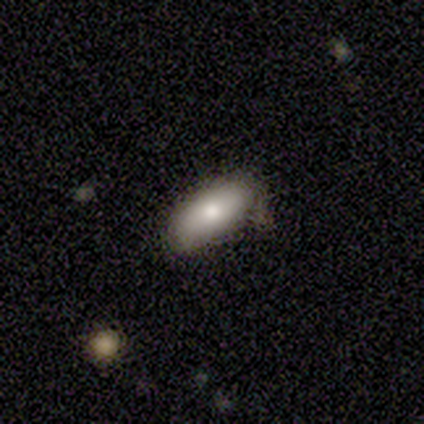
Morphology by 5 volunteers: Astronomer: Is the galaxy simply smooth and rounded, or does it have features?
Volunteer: smooth — 100%.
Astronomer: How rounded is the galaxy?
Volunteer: in between — 60% (runner-up: cigar-shaped, 40%).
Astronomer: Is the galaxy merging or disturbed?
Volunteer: minor disturbance — 60% (runner-up: none, 40%).